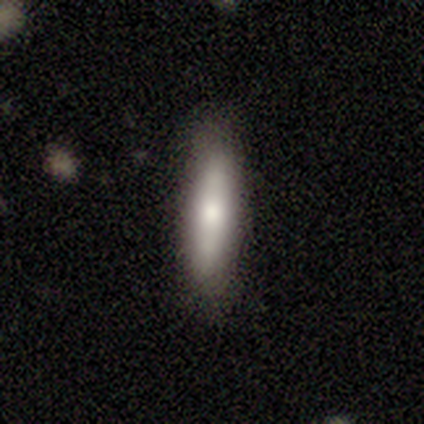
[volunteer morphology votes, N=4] Smooth or featured? smooth (50%, tied with featured or disk)
How rounded? in between (50%, tied with cigar-shaped)
Merging? none (75%)